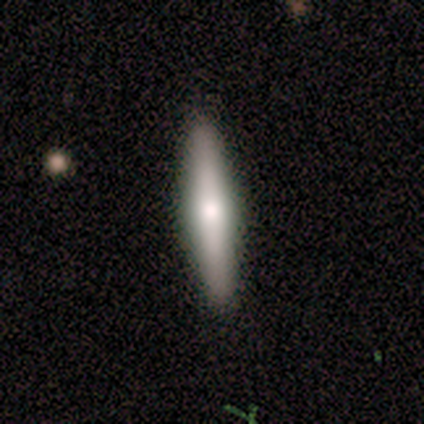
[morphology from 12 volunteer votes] type=smooth (75%); roundness=cigar-shaped (100%); merging=none (100%).